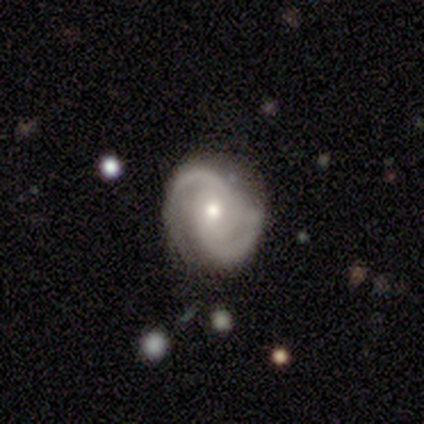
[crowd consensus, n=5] Morphology: type=featured or disk (100%); edge-on=no (100%); bar=weak (60%); spiral arms=yes (100%); winding=medium (60%); arm count=2 (80%); bulge=large (40%, tied with moderate); merging=none (60%).